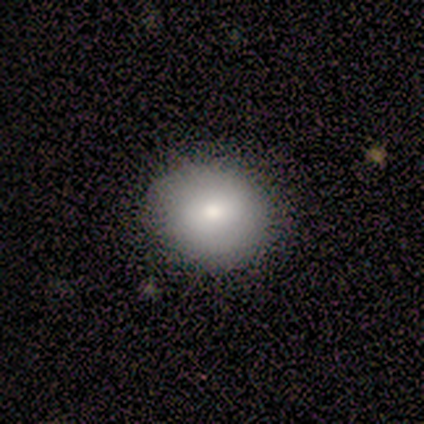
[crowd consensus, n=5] A smooth galaxy with no disk features (60%) that is round (100%).

Vote fractions:
- Smooth or featured? smooth: 60% / featured or disk: 20% / star or artifact: 20%
- How rounded? round: 100% / in between: 0% / cigar-shaped: 0%
- Merging? none: 100% / minor disturbance: 0% / major disturbance: 0% / merger: 0%